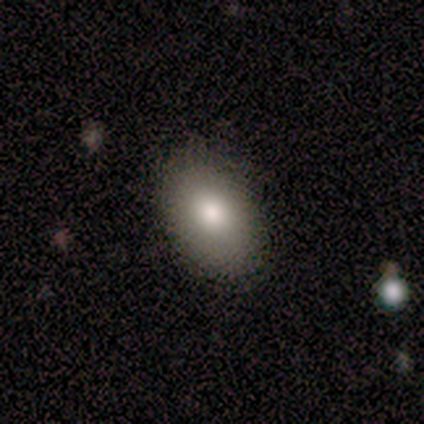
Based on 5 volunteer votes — This is likely a smooth galaxy (60%). How rounded: likely in between (67%). Merging: clearly none (100%).